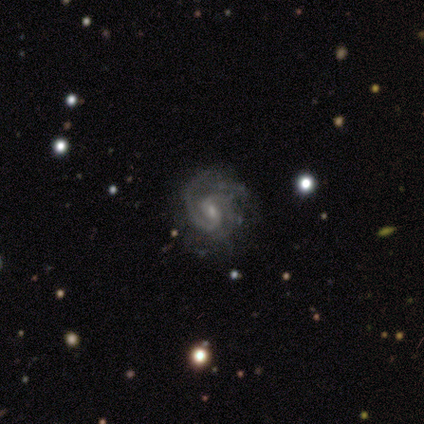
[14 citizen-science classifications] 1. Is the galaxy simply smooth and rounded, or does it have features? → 100% featured or disk, 0% smooth, 0% star or artifact.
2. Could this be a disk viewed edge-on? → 100% no, 0% yes.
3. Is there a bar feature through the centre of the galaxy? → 71% weak, 21% no, 7% strong.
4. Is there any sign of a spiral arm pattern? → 100% yes, 0% no.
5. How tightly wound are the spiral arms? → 43% tight (tied), 43% medium (tied), 14% loose.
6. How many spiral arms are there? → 79% 2, 14% can't tell, 7% 3, 0% 1, 0% 4, 0% more than 4.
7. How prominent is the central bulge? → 71% small, 21% moderate, 7% large, 0% dominant, 0% none.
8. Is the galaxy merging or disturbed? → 57% none, 21% minor disturbance, 14% major disturbance, 7% merger.